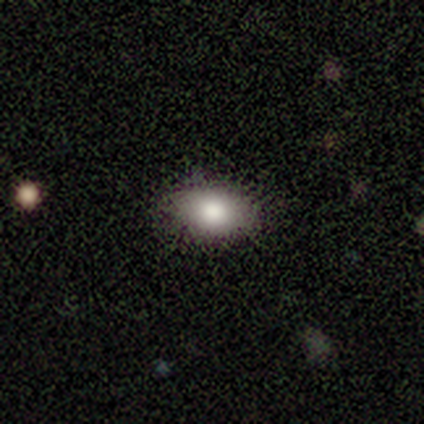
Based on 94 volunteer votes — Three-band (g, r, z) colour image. It shows a smooth galaxy with no disk features (80%) that is in between round and cigar-shaped (92%). Merging: none (80%).